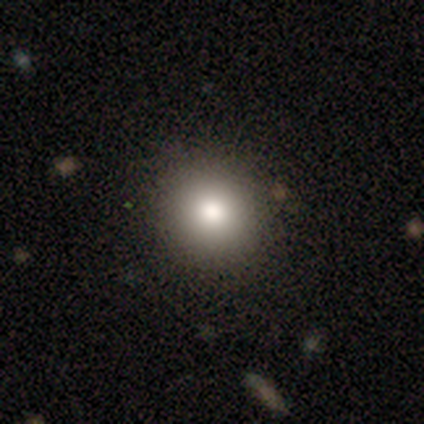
A smooth galaxy with no disk features (82%) that is round (94%). Merging: none (94%).